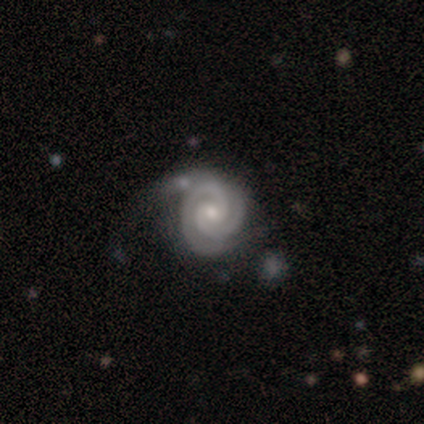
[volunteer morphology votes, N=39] Smooth or featured?
  - featured or disk: 87% *
  - star or artifact: 8%
  - smooth: 5%
Edge-on disk?
  - no: 100% *
  - yes: 0%
Bar?
  - no: 56% *
  - weak: 38%
  - strong: 6%
Spiral arms?
  - yes: 100% *
  - no: 0%
Spiral winding?
  - tight: 88% *
  - medium: 12%
  - loose: 0%
Spiral arm count?
  - 2: 76% *
  - 3: 18%
  - 1: 3%
  - can't tell: 3%
  - 4: 0%
  - more than 4: 0%
Bulge size?
  - small: 65% *
  - moderate: 32%
  - large: 3%
  - dominant: 0%
  - none: 0%
Merging?
  - none: 53% *
  - minor disturbance: 25%
  - major disturbance: 14%
  - merger: 8%